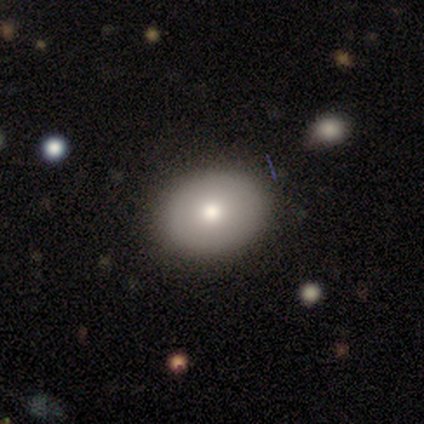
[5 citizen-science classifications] smooth-or-featured: smooth: 40% (tied) | featured or disk: 40% (tied) | star or artifact: 20%
  how-rounded: in between: 100% | round: 0% | cigar-shaped: 0%
  merging: none: 100% | minor disturbance: 0% | major disturbance: 0% | merger: 0%